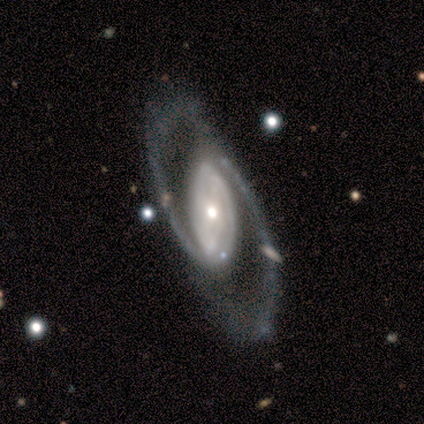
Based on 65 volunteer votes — Volunteers were most divided on "bar": no: 41%, strong: 34%, weak: 24%. More confident: edge-on disk — no (97%); spiral arm count — 2 (96%); smooth or featured — featured or disk (92%); spiral arms — yes (86%); merging — none (65%); bulge size — moderate (57%); spiral winding — medium (52%).